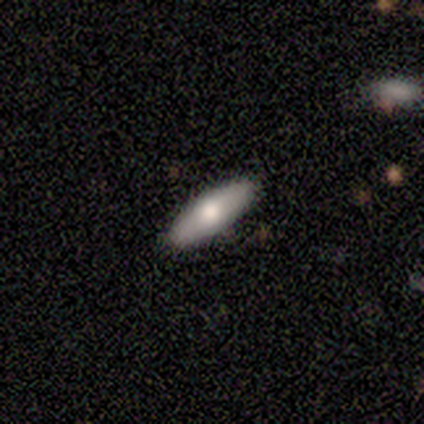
This appears to be a smooth galaxy with no disk features (100%) that is in between round and cigar-shaped (100%). Merging: none (50%, tied with minor disturbance).